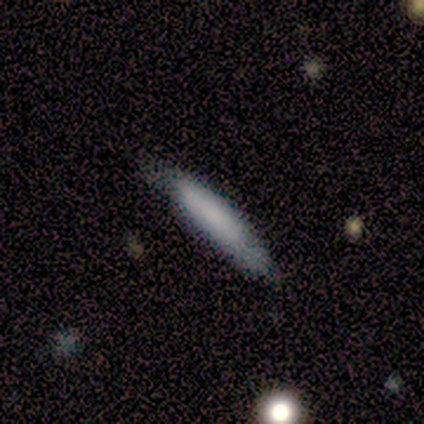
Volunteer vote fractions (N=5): Volunteers were most divided on "merging": none: 80%, minor disturbance: 20%, major disturbance: 0%, merger: 0%. More confident: smooth or featured — smooth (100%); how rounded — cigar-shaped (100%).